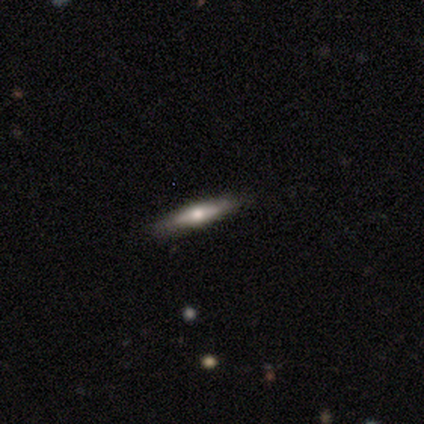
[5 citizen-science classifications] A smooth galaxy with no disk features (100%) that is cigar-shaped (100%). Merging: none (100%).